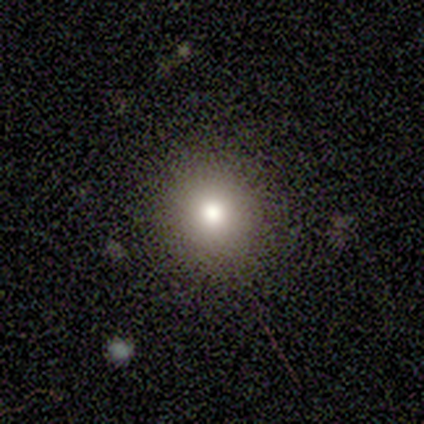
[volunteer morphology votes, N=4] Smooth or featured: smooth — 100%
How rounded: round — 100%
Merging: none — 75% (minor disturbance — 25%)